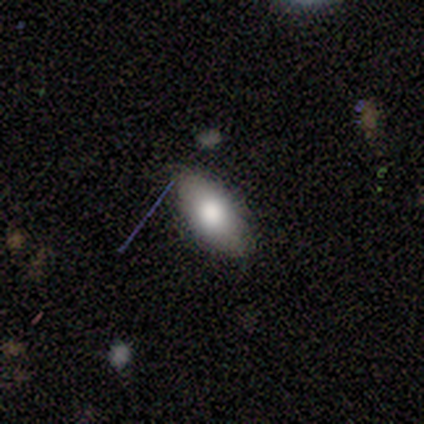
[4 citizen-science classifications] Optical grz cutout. It shows a smooth galaxy with no disk features (75%) that is in between round and cigar-shaped (100%). Merging: none (75%).